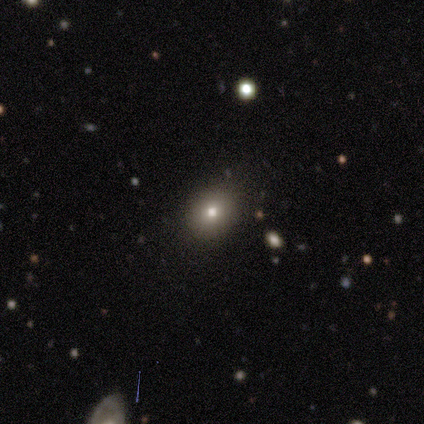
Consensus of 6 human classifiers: Smooth or featured? smooth (67%)
How rounded? round (50%, tied with in between)
Merging? none (100%)